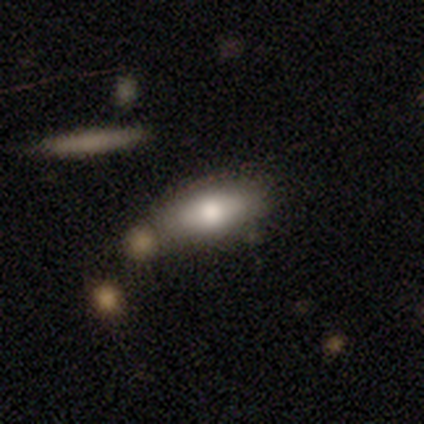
Overall: smooth (100%). How rounded: in between (100%). Merging: none (80%).